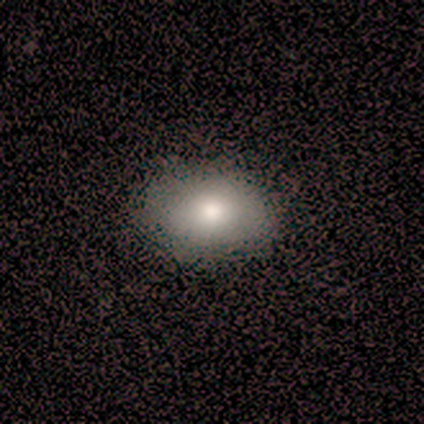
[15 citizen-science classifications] Q: Smooth or featured?
A: smooth (87%); runner-up: featured or disk (7%)
Q: How rounded?
A: in between (69%); runner-up: round (31%)
Q: Merging?
A: none (93%); runner-up: minor disturbance (7%)